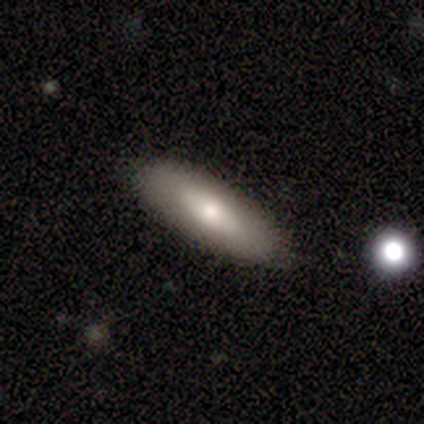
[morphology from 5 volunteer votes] Smooth or featured?
  - featured or disk: 80% *
  - smooth: 20%
  - star or artifact: 0%
Edge-on disk?
  - no: 75% *
  - yes: 25%
Bar?
  - no: 100% *
  - strong: 0%
  - weak: 0%
Spiral arms?
  - no: 100% *
  - yes: 0%
Bulge size?
  - small: 67% *
  - moderate: 33%
  - dominant: 0%
  - large: 0%
  - none: 0%
Merging?
  - none: 60% *
  - minor disturbance: 20%
  - major disturbance: 20%
  - merger: 0%